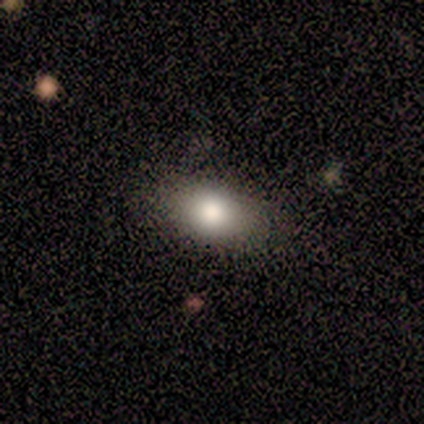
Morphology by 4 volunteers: smooth_or_featured: smooth (p=0.75) [alt: star or artifact p=0.25]
how_rounded: in between (p=1.00)
merging: none (p=1.00)